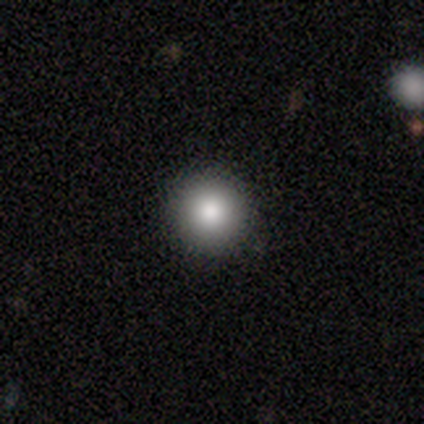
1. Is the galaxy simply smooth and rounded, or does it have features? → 80% smooth, 20% star or artifact, 0% featured or disk.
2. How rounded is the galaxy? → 100% round, 0% in between, 0% cigar-shaped.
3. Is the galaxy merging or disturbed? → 100% none, 0% minor disturbance, 0% major disturbance, 0% merger.